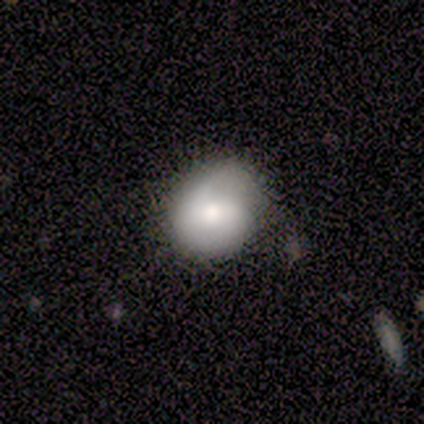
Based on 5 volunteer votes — Volunteers were most divided on "smooth or featured": smooth: 60%, featured or disk: 40%, star or artifact: 0%. More confident: how rounded — round (67%); merging — none (60%).